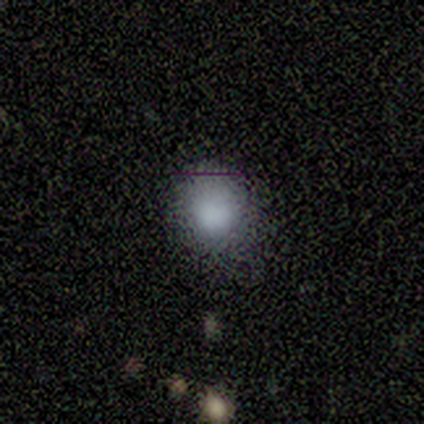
Morphology: type=smooth (75%); roundness=in between (67%); merging=none (67%).